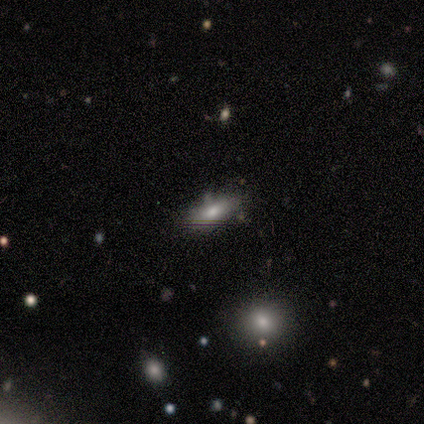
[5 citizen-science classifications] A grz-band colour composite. It shows a smooth galaxy with no disk features (60%) that is in between round and cigar-shaped (100%). Merging: none (100%).